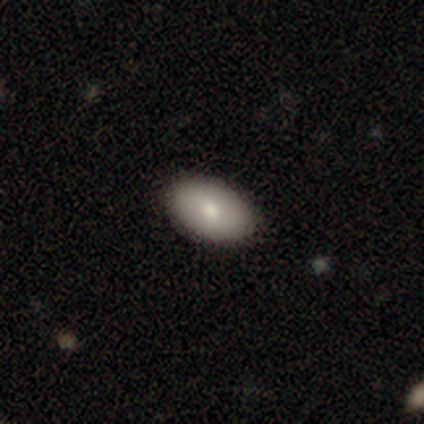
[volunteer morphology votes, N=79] Volunteers were most divided on "merging": none: 48%, minor disturbance: 3%, major disturbance: 0%, merger: 0%. More confident: how rounded — in between (88%); smooth or featured — smooth (85%).